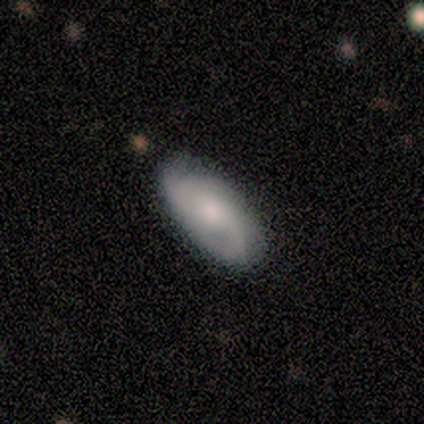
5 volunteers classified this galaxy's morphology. Smooth or featured?
  - smooth: 60% *
  - featured or disk: 40%
  - star or artifact: 0%
How rounded?
  - cigar-shaped: 67% *
  - in between: 33%
  - round: 0%
Merging?
  - none: 60% *
  - major disturbance: 40%
  - minor disturbance: 0%
  - merger: 0%